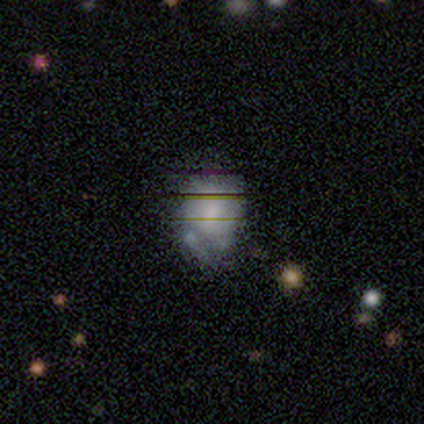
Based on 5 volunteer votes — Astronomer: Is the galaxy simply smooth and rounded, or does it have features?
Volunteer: featured or disk — 60% (runner-up: smooth, 40%).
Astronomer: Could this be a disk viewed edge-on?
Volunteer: no — 100%.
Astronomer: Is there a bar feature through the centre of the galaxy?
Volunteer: no — 67%.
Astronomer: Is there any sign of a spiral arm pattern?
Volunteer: no — 67%.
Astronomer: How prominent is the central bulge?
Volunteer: moderate — 33%, tied with small and none at 33%.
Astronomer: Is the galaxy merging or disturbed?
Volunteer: none — 80%.